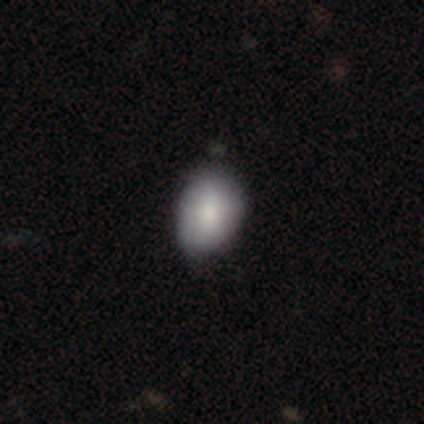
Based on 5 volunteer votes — A smooth galaxy with no disk features (40%, tied with star or artifact) that is in between round and cigar-shaped (100%). Merging: none (100%).